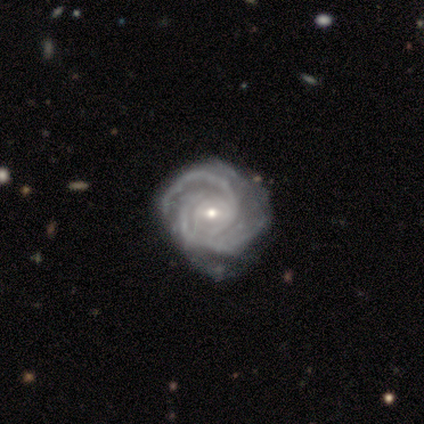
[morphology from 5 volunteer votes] featured or disk 100%, smooth 0%, star or artifact 0%. Down the decision tree: edge-on disk — no (100%); bar — no (60%); spiral arms — yes (100%); spiral arm count — 2 (40%); spiral winding — tight (100%); bulge size — small (80%); merging — minor disturbance (60%).